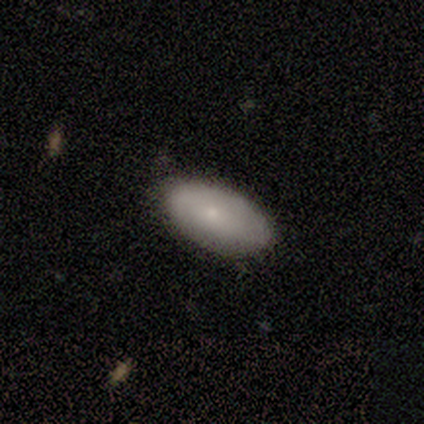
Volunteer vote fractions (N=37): A smooth galaxy with no disk features (65%) that is in between round and cigar-shaped (96%). Merging: none (72%).